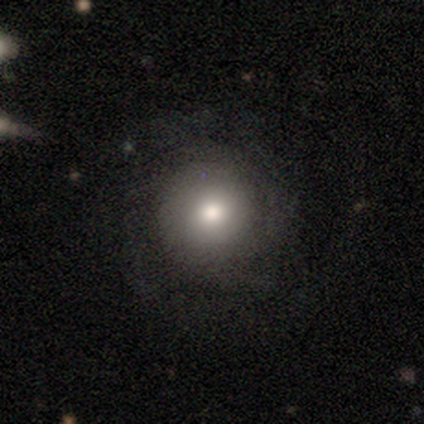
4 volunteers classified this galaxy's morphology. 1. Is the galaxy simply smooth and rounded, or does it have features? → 50% smooth (tied), 50% featured or disk (tied), 0% star or artifact.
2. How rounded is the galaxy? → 50% round (tied), 50% cigar-shaped (tied), 0% in between.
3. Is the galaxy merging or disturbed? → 100% none, 0% minor disturbance, 0% major disturbance, 0% merger.